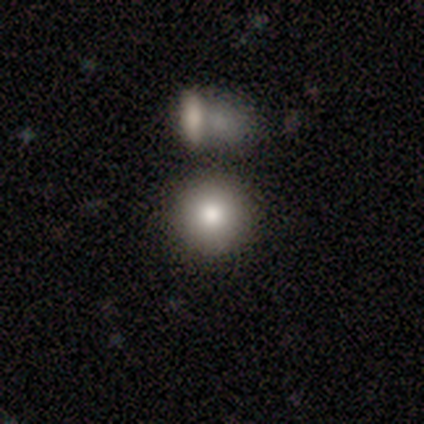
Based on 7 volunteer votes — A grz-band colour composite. It shows a smooth galaxy with no disk features (100%) that is round (71%). Merging: none (57%).